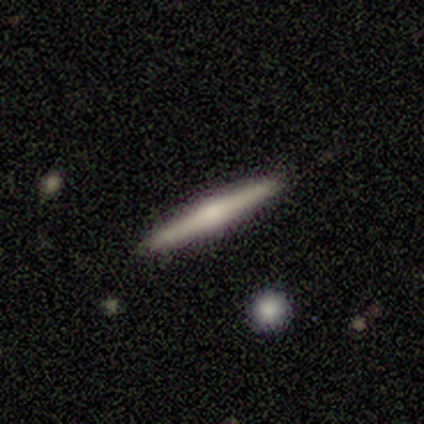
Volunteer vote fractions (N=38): This is possibly a featured or disk galaxy (53%). It is clearly viewed edge-on (100%). Edge-on bulge: clearly rounded (100%). Merging: clearly none (83%).